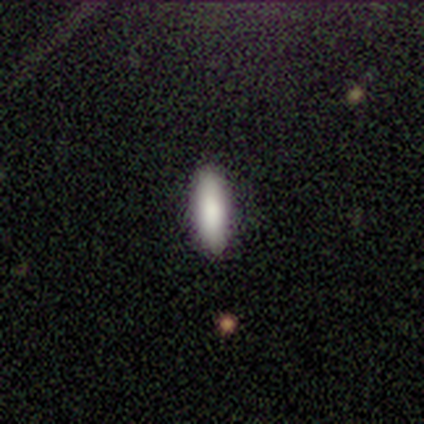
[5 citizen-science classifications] Morphology: type=smooth (80%); roundness=in between (50%, tied with cigar-shaped); merging=none (100%).